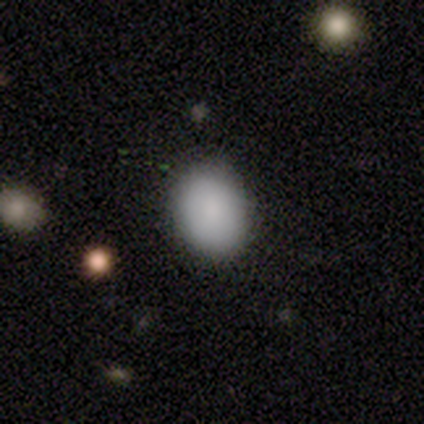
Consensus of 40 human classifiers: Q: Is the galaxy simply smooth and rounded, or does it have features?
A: smooth — 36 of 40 (90%).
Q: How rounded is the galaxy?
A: in between — 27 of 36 (75%).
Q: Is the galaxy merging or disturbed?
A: none — 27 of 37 (73%).